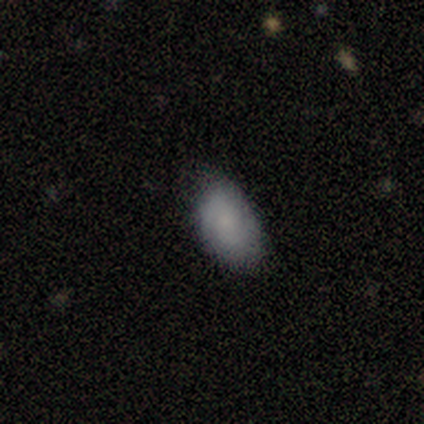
Volunteers were most divided on "merging": minor disturbance: 60%, none: 20%, major disturbance: 20%, merger: 0%. More confident: smooth or featured — smooth (100%); how rounded — in between (100%).